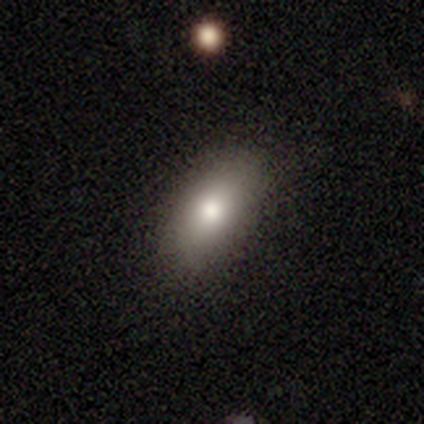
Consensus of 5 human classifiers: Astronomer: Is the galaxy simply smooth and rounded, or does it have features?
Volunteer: smooth — 100%.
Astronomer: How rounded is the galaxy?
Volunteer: in between — 100%.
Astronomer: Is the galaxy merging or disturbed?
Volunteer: minor disturbance — 60% (runner-up: none, 40%).